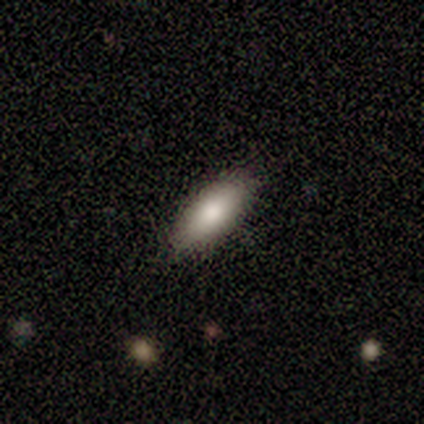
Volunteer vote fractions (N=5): A smooth galaxy with no disk features (60%) that is in between round and cigar-shaped (100%).

Vote fractions:
- Smooth or featured? smooth: 60% / featured or disk: 20% / star or artifact: 20%
- How rounded? in between: 100% / round: 0% / cigar-shaped: 0%
- Merging? none: 100% / minor disturbance: 0% / major disturbance: 0% / merger: 0%